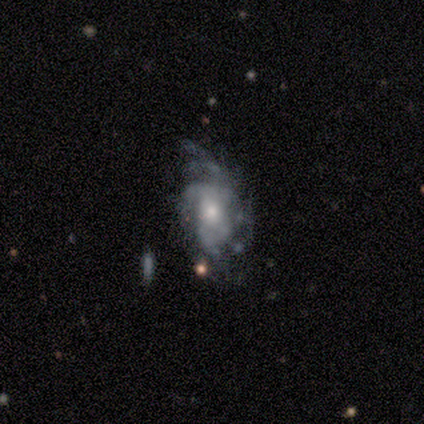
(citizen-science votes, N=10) featured or disk 80%, smooth 20%, star or artifact 0%. Down the decision tree: edge-on disk — no (75%); bar — no (100%); spiral arms — yes (83%); spiral arm count — more than 4 (40%); spiral winding — tight (60%); bulge size — large (33%, tied with moderate); merging — none (40%, tied with major disturbance).